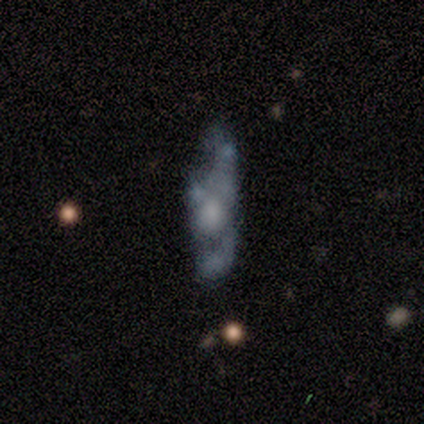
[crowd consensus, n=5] featured or disk 60%, smooth 40%, star or artifact 0%. Down the decision tree: edge-on disk — no (100%); bar — no (67%); spiral arms — yes (67%); spiral arm count — 2 (50%, tied with 3); spiral winding — medium (50%, tied with loose); bulge size — large (33%, tied with moderate and small); merging — none (40%).